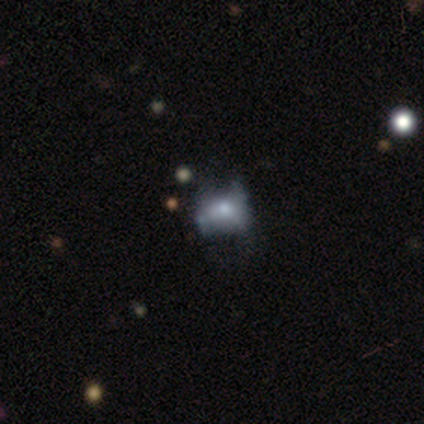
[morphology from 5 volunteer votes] Smooth or featured?
  - smooth: 80% *
  - featured or disk: 20%
  - star or artifact: 0%
How rounded?
  - in between: 100% *
  - round: 0%
  - cigar-shaped: 0%
Merging?
  - minor disturbance: 40% * (tied)
  - major disturbance: 40% * (tied)
  - none: 20%
  - merger: 0%